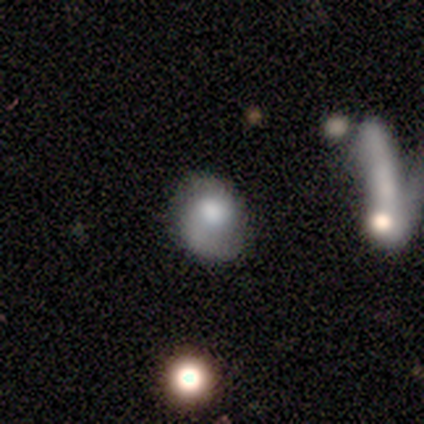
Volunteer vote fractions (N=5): smooth 60%, featured or disk 40%, star or artifact 0%. Down the decision tree: how rounded — round (67%); merging — none (60%).